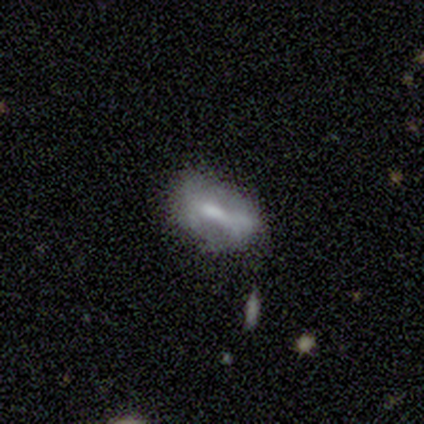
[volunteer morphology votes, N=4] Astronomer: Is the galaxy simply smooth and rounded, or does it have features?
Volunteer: smooth — 50%.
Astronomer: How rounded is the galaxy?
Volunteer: in between — 50%, tied with cigar-shaped at 50%.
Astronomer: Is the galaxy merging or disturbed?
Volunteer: minor disturbance — 67%.